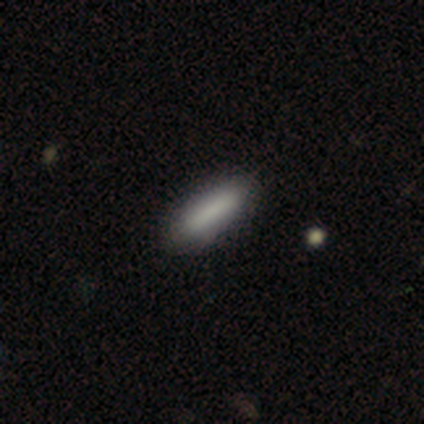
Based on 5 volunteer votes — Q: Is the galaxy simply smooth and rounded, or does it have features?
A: smooth — 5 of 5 (100%).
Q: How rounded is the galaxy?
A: in between — 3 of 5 (60%).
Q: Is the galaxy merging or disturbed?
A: none — 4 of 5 (80%).